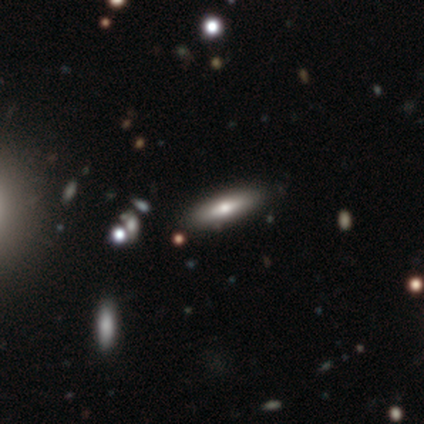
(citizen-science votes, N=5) Overall: smooth (40%, tied with featured or disk). How rounded: in between (50%, tied with cigar-shaped). Merging: none (100%).